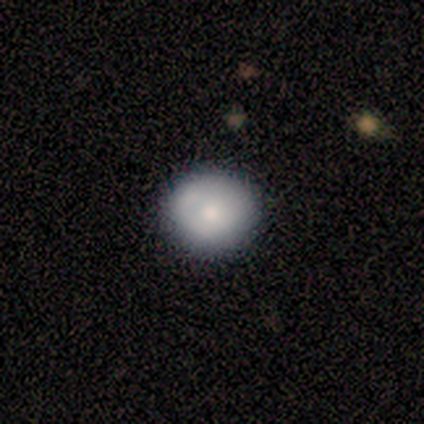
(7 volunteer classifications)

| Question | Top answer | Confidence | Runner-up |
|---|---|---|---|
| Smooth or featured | smooth | 57% | featured or disk (29%) |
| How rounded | round | 75% | in between (25%) |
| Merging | none | 100% | — |